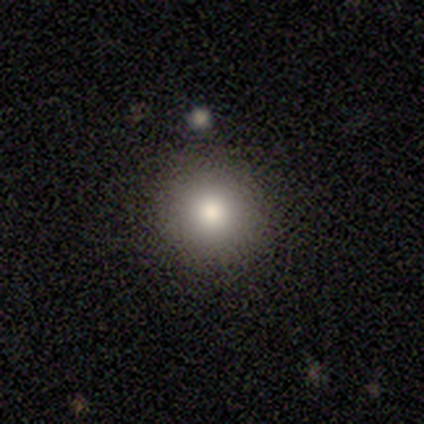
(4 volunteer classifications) Smooth or featured?
  - smooth: 50% *
  - featured or disk: 25%
  - star or artifact: 25%
How rounded?
  - round: 50% * (tied)
  - in between: 50% * (tied)
  - cigar-shaped: 0%
Merging?
  - none: 100% *
  - minor disturbance: 0%
  - major disturbance: 0%
  - merger: 0%